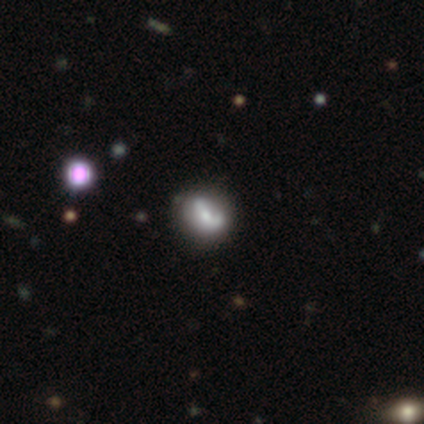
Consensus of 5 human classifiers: Q: Smooth or featured?
A: featured or disk (60%); runner-up: smooth (20%)
Q: Edge-on disk?
A: no (100%)
Q: Bar?
A: strong (33%); tied with: weak (33%); no (33%)
Q: Spiral arms?
A: no (67%); runner-up: yes (33%)
Q: Bulge size?
A: moderate (67%); runner-up: none (33%)
Q: Merging?
A: none (75%); runner-up: minor disturbance (25%)